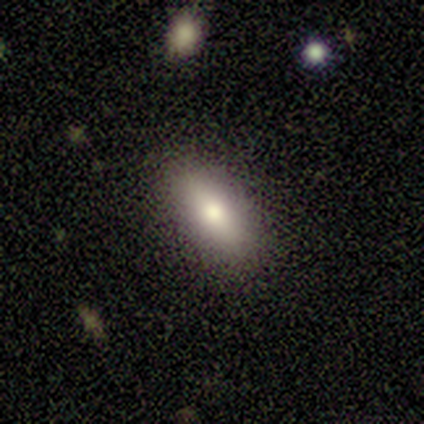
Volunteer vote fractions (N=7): Morphology: type=smooth (86%); roundness=in between (67%); merging=none (100%).